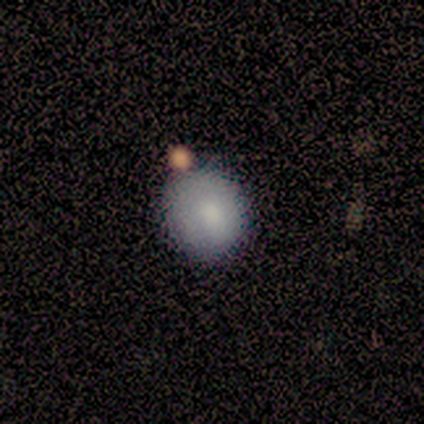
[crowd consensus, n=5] This appears to be a smooth galaxy with no disk features (100%) that is round (80%). Merging: none (60%).